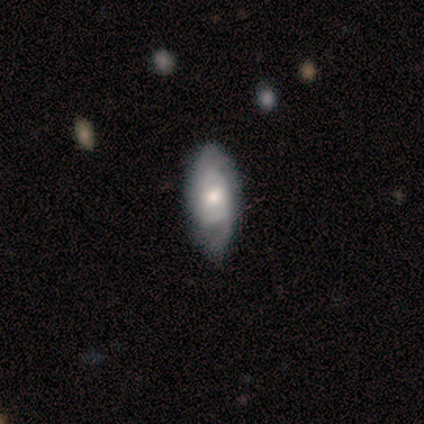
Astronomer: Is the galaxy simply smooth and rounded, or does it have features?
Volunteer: featured or disk — 100%.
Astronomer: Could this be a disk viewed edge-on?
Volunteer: no — 100%.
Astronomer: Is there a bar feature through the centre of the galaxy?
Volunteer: no — 80%.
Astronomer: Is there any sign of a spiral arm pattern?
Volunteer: yes — 100%.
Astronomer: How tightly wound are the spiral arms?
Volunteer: medium — 60% (runner-up: loose, 40%).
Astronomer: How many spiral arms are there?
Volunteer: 2 — 80%.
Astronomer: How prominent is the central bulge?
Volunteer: moderate — 60% (runner-up: small, 40%).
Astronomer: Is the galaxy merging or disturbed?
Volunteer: none — 80%.